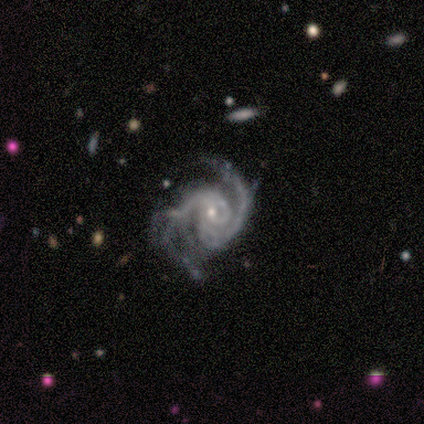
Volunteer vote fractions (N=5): This appears to be a featured or disk galaxy (80%) with no bar (67%), 2 (100%) medium (100%) spiral arms (100%) and a small central bulge (67%). Merging: none (60%).